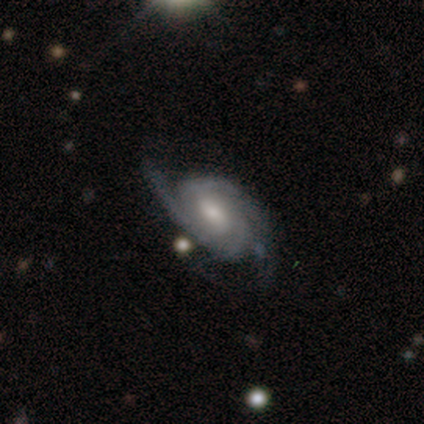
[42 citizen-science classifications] Smooth or featured?
  - featured or disk: 88% *
  - smooth: 10%
  - star or artifact: 2%
Edge-on disk?
  - no: 100% *
  - yes: 0%
Bar?
  - weak: 51% *
  - no: 41%
  - strong: 8%
Spiral arms?
  - yes: 95% *
  - no: 5%
Spiral winding?
  - tight: 51% *
  - medium: 43%
  - loose: 6%
Spiral arm count?
  - 2: 57% *
  - can't tell: 20%
  - 3: 14%
  - 4: 6%
  - 1: 3%
  - more than 4: 0%
Bulge size?
  - moderate: 73% *
  - small: 14%
  - none: 8%
  - large: 5%
  - dominant: 0%
Merging?
  - none: 68% *
  - minor disturbance: 15%
  - major disturbance: 15%
  - merger: 2%